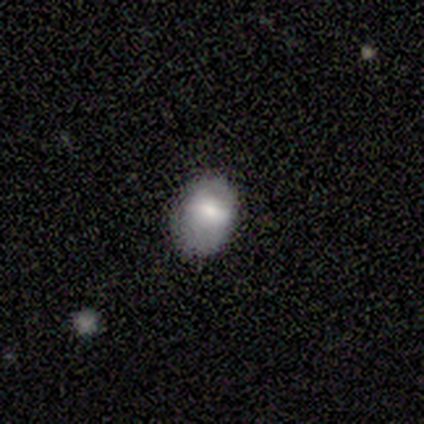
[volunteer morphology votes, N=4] Volunteers were most divided on "merging": none: 50%, minor disturbance: 25%, major disturbance: 25%, merger: 0%. More confident: smooth or featured — smooth (75%); how rounded — in between (67%).